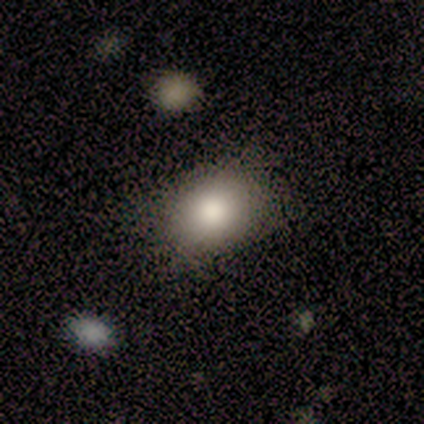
Overall: smooth (82%). How rounded: round (67%; in between 33%). Merging: none (73%).